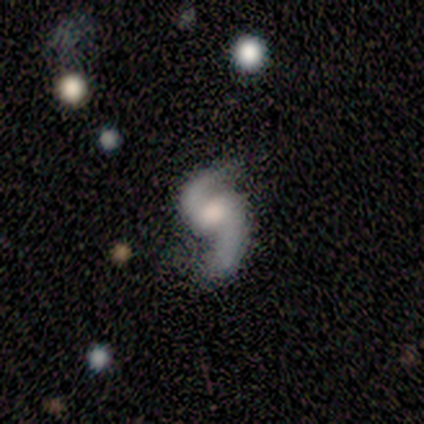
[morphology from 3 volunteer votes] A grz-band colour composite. It shows a featured or disk galaxy (100%) with no bar (100%), 2 (100%) loose (100%) spiral arms (100%) and a moderate central bulge (50%, tied with none). Merging: none (33%, tied with major disturbance and merger).